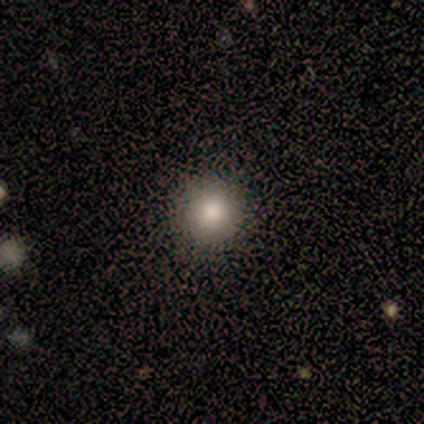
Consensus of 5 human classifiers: smooth_or_featured: smooth (p=1.00)
how_rounded: round (p=1.00)
merging: none (p=1.00)